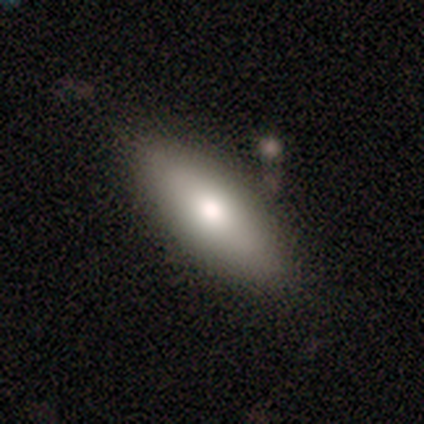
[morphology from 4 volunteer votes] smooth-or-featured: smooth: 75% | featured or disk: 25% | star or artifact: 0%
  how-rounded: in between: 67% | cigar-shaped: 33% | round: 0%
  merging: none: 100% | minor disturbance: 0% | major disturbance: 0% | merger: 0%